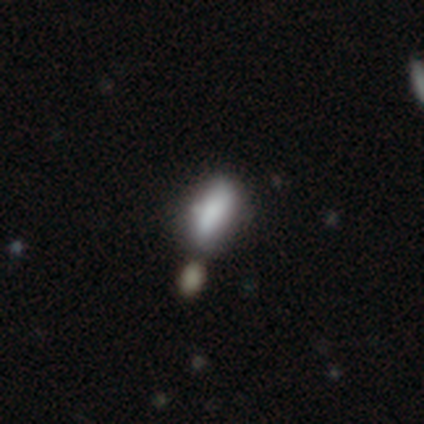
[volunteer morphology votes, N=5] Q: Smooth or featured?
A: smooth (80%); runner-up: featured or disk (20%)
Q: How rounded?
A: in between (50%); tied with: cigar-shaped (50%)
Q: Merging?
A: none (40%); runner-up: minor disturbance (20%)